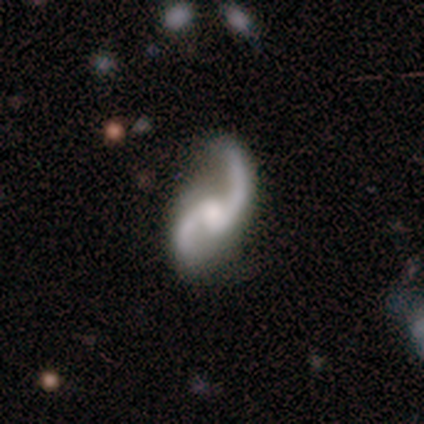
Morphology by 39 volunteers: smooth-or-featured: featured or disk: 95% | smooth: 5% | star or artifact: 0%
  disk-edge-on: no: 95% | yes: 5%
    bar: weak: 54% | no: 37% | strong: 9%
    has-spiral-arms: yes: 94% | no: 6%
      spiral-winding: loose: 85% | medium: 15% | tight: 0%
      spiral-arm-count: 2: 94% | 1: 3% | can't tell: 3% | 3: 0% | 4: 0% | more than 4: 0%
    bulge-size: moderate: 43% | small: 31% | none: 17% | large: 9% | dominant: 0%
  merging: none: 69% | minor disturbance: 18% | major disturbance: 13% | merger: 0%